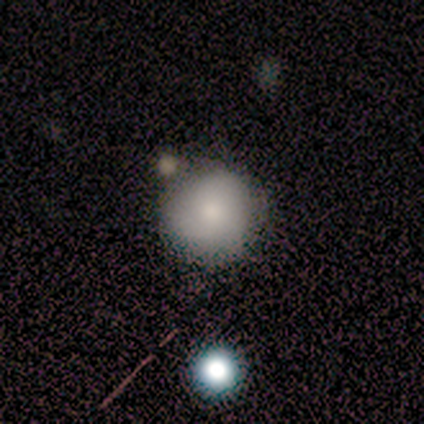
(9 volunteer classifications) A smooth galaxy with no disk features (89%) that is round (100%).

Vote fractions:
- Smooth or featured? smooth: 89% / featured or disk: 11% / star or artifact: 0%
- How rounded? round: 100% / in between: 0% / cigar-shaped: 0%
- Merging? none: 78% / minor disturbance: 11% / merger: 11% / major disturbance: 0%